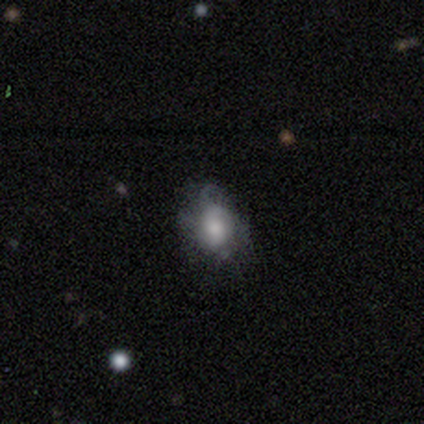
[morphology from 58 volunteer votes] A featured or disk galaxy (52%) with no bar (86%), tight (50%) spiral arms (55%) and a moderate central bulge (52%).

Vote fractions:
- Smooth or featured? featured or disk: 52% / smooth: 36% / star or artifact: 12%
- Edge-on disk? no: 97% / yes: 3%
- Bar? no: 86% / weak: 10% / strong: 3%
- Spiral arms? yes: 55% / no: 45%
- Spiral winding? tight: 50% / medium: 25% / loose: 25%
- Spiral arm count? can't tell: 75% / 4: 12% / 1: 6% / 3: 6% / 2: 0% / more than 4: 0%
- Bulge size? moderate: 52% / large: 21% / small: 17% / dominant: 10% / none: 0%
- Merging? none: 43% / minor disturbance: 37% / major disturbance: 20% / merger: 0%